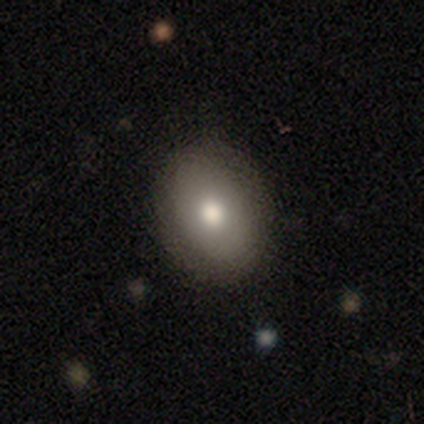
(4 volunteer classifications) smooth 75%, star or artifact 25%, featured or disk 0%. Down the decision tree: how rounded — in between (67%); merging — none (100%).